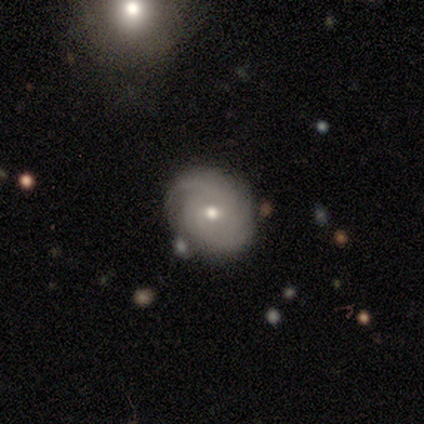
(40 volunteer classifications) Smooth or featured?
  - featured or disk: 80% *
  - smooth: 15%
  - star or artifact: 5%
Edge-on disk?
  - no: 97% *
  - yes: 3%
Bar?
  - no: 71% *
  - weak: 29%
  - strong: 0%
Spiral arms?
  - yes: 84% *
  - no: 16%
Spiral winding?
  - tight: 58% *
  - medium: 27%
  - loose: 15%
Spiral arm count?
  - can't tell: 38% *
  - 3: 23%
  - 2: 19%
  - 1: 15%
  - more than 4: 4%
  - 4: 0%
Bulge size?
  - small: 52% *
  - moderate: 45%
  - none: 3%
  - dominant: 0%
  - large: 0%
Merging?
  - none: 79% *
  - minor disturbance: 11%
  - merger: 8%
  - major disturbance: 3%